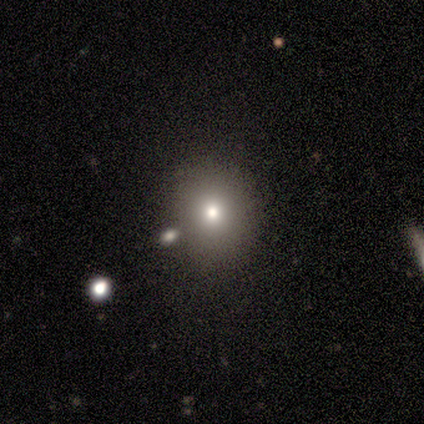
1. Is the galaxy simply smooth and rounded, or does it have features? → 100% smooth, 0% featured or disk, 0% star or artifact.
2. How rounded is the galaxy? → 100% round, 0% in between, 0% cigar-shaped.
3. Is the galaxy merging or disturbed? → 100% none, 0% minor disturbance, 0% major disturbance, 0% merger.